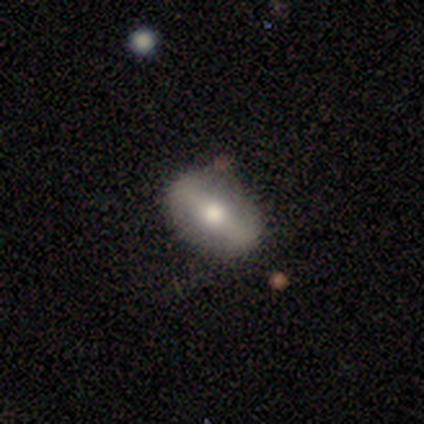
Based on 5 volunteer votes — Smooth or featured?
  - smooth: 60% *
  - featured or disk: 40%
  - star or artifact: 0%
How rounded?
  - in between: 100% *
  - round: 0%
  - cigar-shaped: 0%
Merging?
  - none: 80% *
  - minor disturbance: 20%
  - major disturbance: 0%
  - merger: 0%